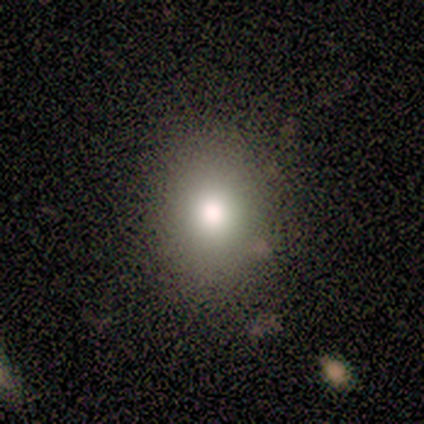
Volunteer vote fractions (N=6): Smooth or featured? smooth (67%)
How rounded? round (75%)
Merging? none (100%)